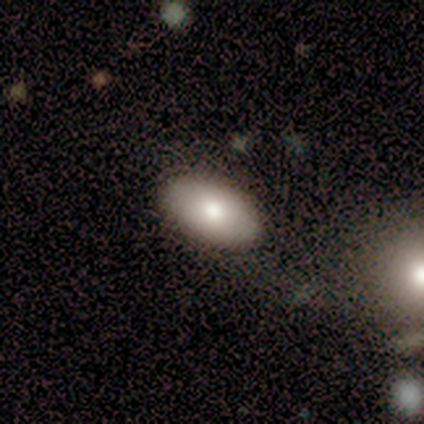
Smooth or featured: smooth — 60% (featured or disk — 40%)
How rounded: in between — 100%
Merging: none — 80% (minor disturbance — 20%)